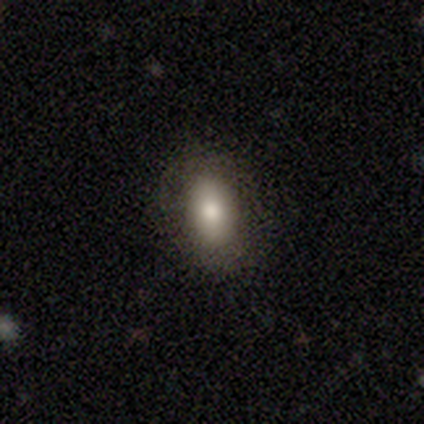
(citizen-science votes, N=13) This is likely a smooth galaxy (62%). How rounded: clearly in between (88%). Merging: likely none (67%).